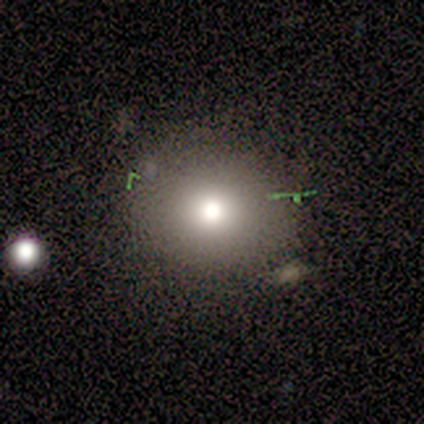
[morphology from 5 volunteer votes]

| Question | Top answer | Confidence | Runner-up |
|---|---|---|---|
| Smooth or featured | smooth | 100% | — |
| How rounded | round | 100% | — |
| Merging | none | 80% | minor disturbance (20%) |